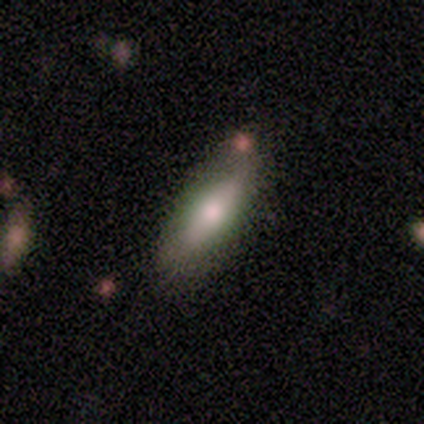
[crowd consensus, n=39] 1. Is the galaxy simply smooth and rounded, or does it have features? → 74% smooth, 23% featured or disk, 3% star or artifact.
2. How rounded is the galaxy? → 69% in between, 31% cigar-shaped, 0% round.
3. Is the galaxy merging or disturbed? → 71% none, 21% minor disturbance, 8% merger, 0% major disturbance.